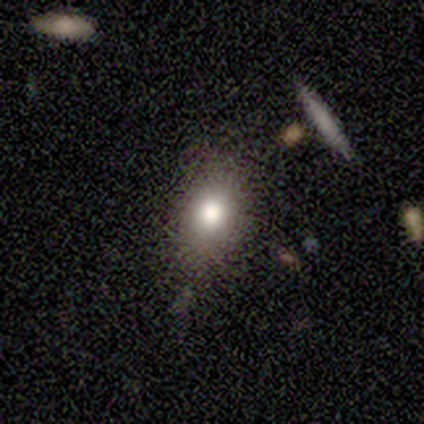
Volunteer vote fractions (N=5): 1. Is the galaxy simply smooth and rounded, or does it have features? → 100% smooth, 0% featured or disk, 0% star or artifact.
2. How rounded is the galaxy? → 60% round, 40% in between, 0% cigar-shaped.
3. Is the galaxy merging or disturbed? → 80% none, 20% minor disturbance, 0% major disturbance, 0% merger.